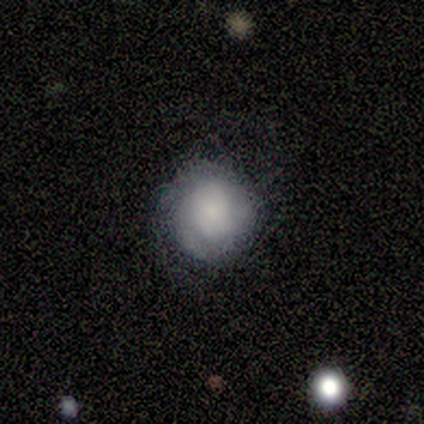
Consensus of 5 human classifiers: Volunteers were most divided on "smooth or featured": smooth: 80%, featured or disk: 20%, star or artifact: 0%. More confident: how rounded — round (100%); merging — none (100%).